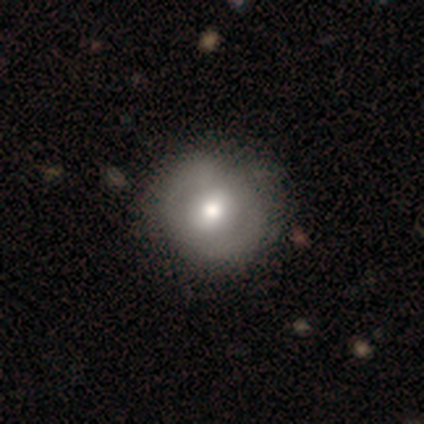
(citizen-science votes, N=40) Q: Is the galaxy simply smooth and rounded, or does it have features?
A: smooth — 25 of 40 (62%).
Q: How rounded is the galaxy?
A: round — 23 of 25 (92%).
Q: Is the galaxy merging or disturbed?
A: none — 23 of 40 (57%).